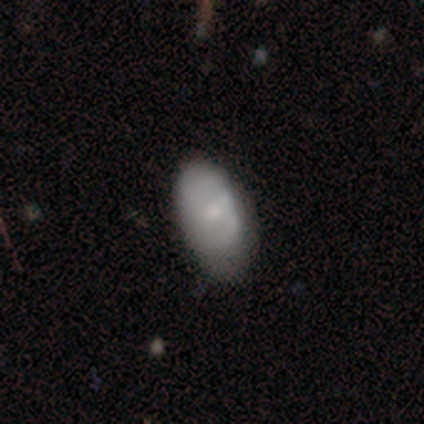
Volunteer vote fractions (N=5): Smooth or featured? smooth (80%)
How rounded? in between (100%)
Merging? none (80%)